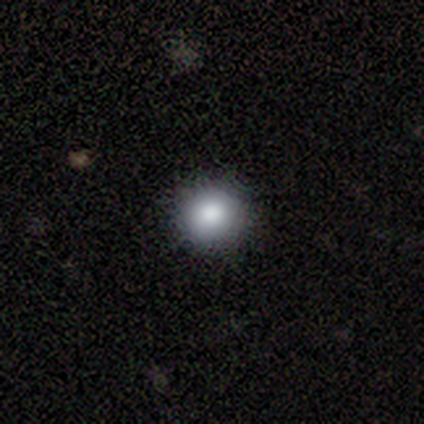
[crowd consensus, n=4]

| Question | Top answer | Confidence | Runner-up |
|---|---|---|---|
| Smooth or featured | smooth | 75% | star or artifact (25%) |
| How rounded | round | 100% | — |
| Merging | none | 100% | — |